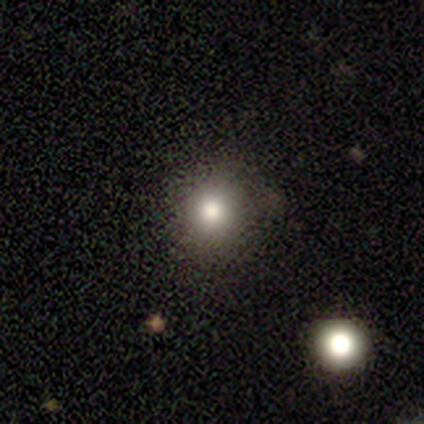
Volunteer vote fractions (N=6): Smooth or featured?
  - smooth: 33% * (tied)
  - featured or disk: 33% * (tied)
  - star or artifact: 33% * (tied)
How rounded?
  - round: 50% * (tied)
  - in between: 50% * (tied)
  - cigar-shaped: 0%
Merging?
  - none: 100% *
  - minor disturbance: 0%
  - major disturbance: 0%
  - merger: 0%